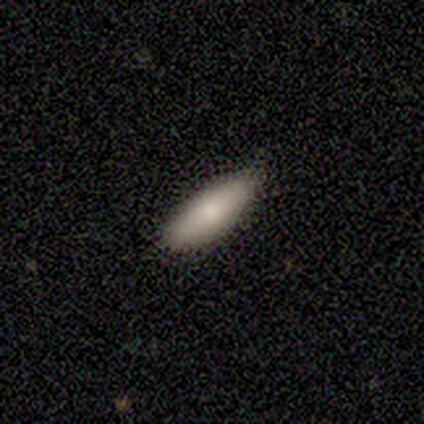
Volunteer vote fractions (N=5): smooth_or_featured: smooth (p=0.80) [alt: featured or disk p=0.20]
how_rounded: in between (p=1.00)
merging: none (p=1.00)